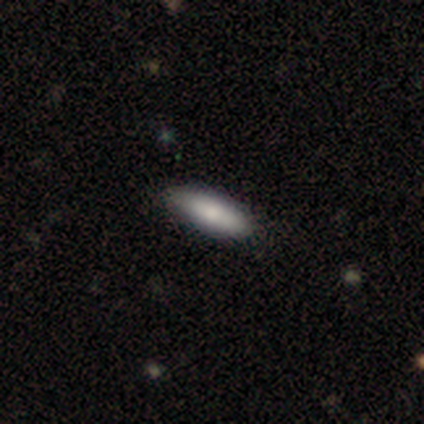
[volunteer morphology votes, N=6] Smooth or featured: smooth — 83% (featured or disk — 17%)
How rounded: in between — 60% (cigar-shaped — 40%)
Merging: none — 67% (minor disturbance — 33%)